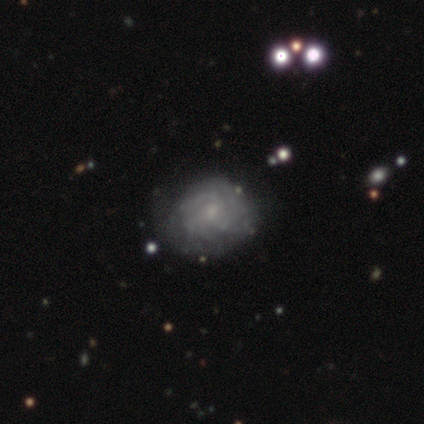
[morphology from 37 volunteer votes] This is clearly a featured or disk galaxy (81%). It is clearly not viewed edge-on (100%). Bar: clearly no (87%). Spiral arm pattern: likely yes (73%). Spiral arm count: possibly can't tell (45%). Spiral winding: possibly tight (59%). Central bulge: clearly small (83%). Merging: clearly none (83%).